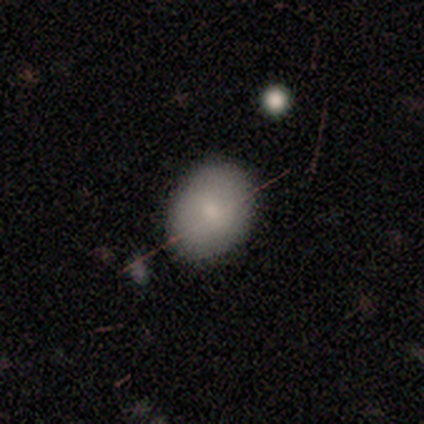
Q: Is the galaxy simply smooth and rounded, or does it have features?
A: smooth — 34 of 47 (72%).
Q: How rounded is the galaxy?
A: in between — 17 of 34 (50%).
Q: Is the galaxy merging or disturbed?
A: none — 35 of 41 (85%).